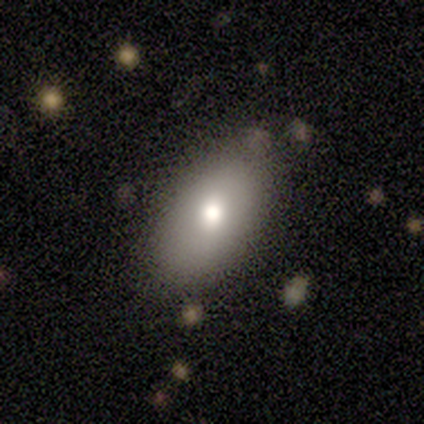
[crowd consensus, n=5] Smooth or featured? 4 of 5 (80%) said smooth. How rounded? 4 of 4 (100%) said in between. Merging? 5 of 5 (100%) said none.